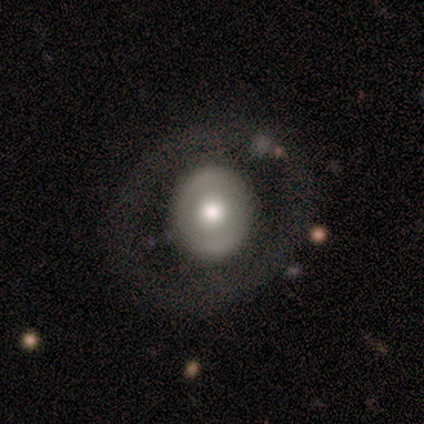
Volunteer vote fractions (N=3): Morphology: type=smooth (67%); roundness=round (50%, tied with in between); merging=none (100%).